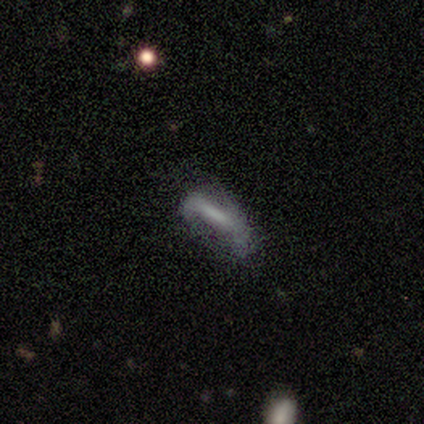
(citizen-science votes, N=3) A smooth galaxy with no disk features (33%, tied with featured or disk and star or artifact) that is in between round and cigar-shaped (100%).

Vote fractions:
- Smooth or featured? smooth: 33% (tied) / featured or disk: 33% (tied) / star or artifact: 33% (tied)
- How rounded? in between: 100% / round: 0% / cigar-shaped: 0%
- Merging? none: 100% / minor disturbance: 0% / major disturbance: 0% / merger: 0%